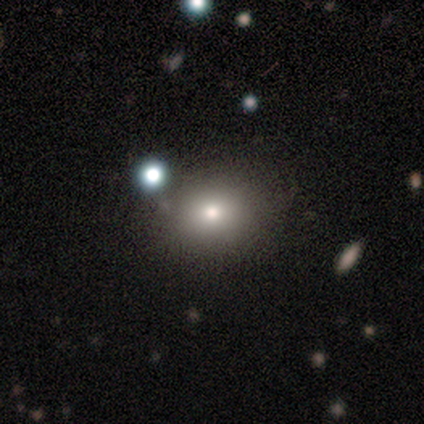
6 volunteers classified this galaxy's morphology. smooth 67%, featured or disk 17%, star or artifact 17%. Down the decision tree: how rounded — round (50%, tied with in between); merging — none (60%).